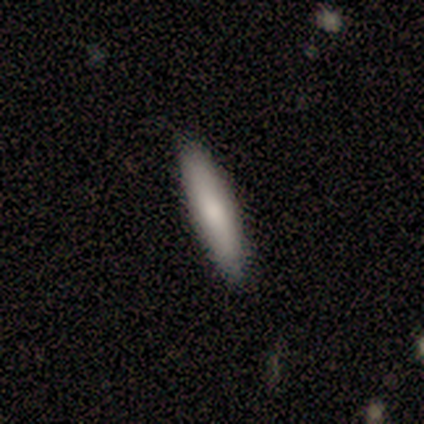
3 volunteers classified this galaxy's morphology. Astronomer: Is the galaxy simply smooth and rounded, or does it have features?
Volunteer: smooth — 100%.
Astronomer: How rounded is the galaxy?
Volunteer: cigar-shaped — 100%.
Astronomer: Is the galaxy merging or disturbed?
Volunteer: none — 100%.